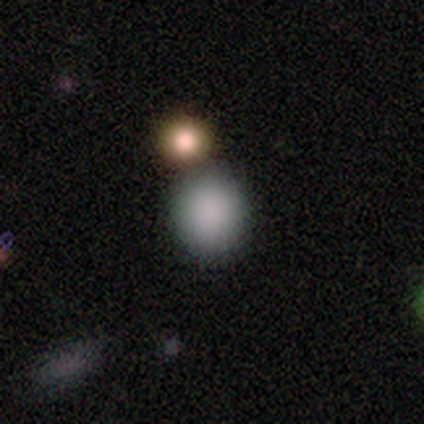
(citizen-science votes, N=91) Volunteers were most divided on "merging": none: 75%, merger: 14%, minor disturbance: 9%, major disturbance: 1%. More confident: how rounded — round (82%); smooth or featured — smooth (78%).